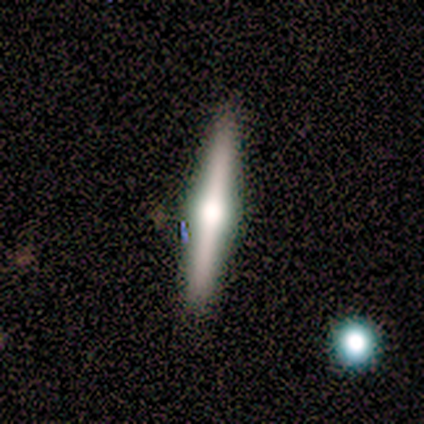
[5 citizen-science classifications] Smooth or featured? 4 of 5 (80%) said featured or disk. Edge-on disk? 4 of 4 (100%) said yes. Edge-on bulge? 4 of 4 (100%) said rounded. Merging? 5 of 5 (100%) said none.